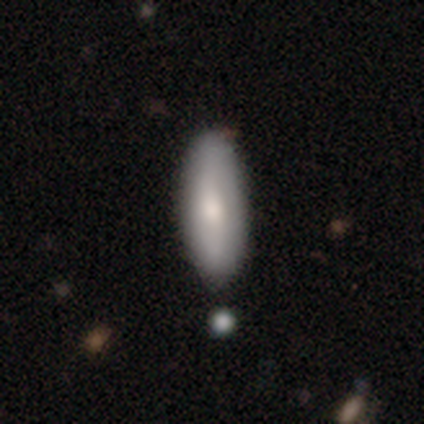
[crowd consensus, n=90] This is likely a smooth galaxy (74%). How rounded: possibly in between (57%). Merging: likely none (73%).